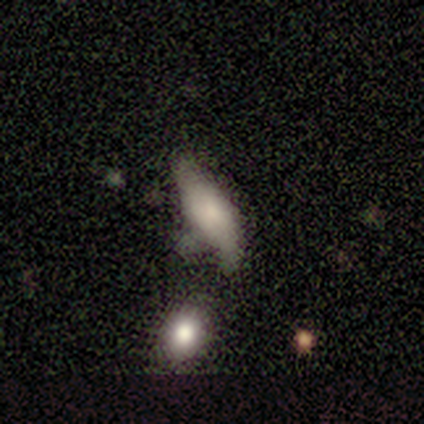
Smooth or featured: featured or disk — 60% (smooth — 40%)
Edge-on disk: yes — 67% (no — 33%)
Edge-on bulge: none — 50% (tied with rounded — 50%)
Merging: none — 40% (tied with minor disturbance — 40%)